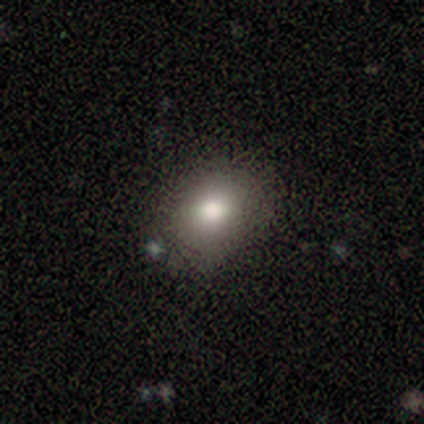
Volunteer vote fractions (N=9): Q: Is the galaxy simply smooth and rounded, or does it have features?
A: smooth — 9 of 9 (100%).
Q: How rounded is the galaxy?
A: in between — 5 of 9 (56%).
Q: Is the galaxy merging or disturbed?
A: none — 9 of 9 (100%).